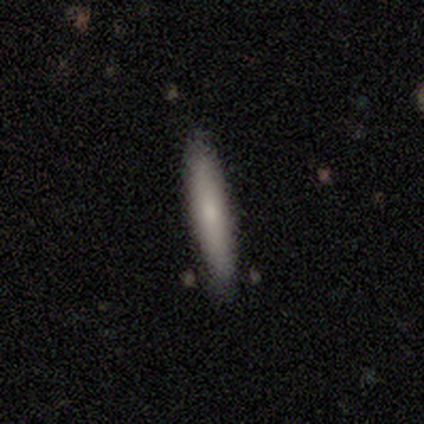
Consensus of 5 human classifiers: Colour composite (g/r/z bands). It shows a smooth galaxy with no disk features (100%) that is cigar-shaped (100%). Merging: none (100%).